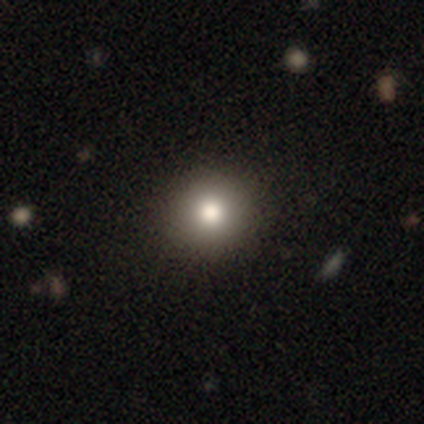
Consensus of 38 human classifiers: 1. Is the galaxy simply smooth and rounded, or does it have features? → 84% smooth, 11% featured or disk, 5% star or artifact.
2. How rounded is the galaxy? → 94% round, 6% in between, 0% cigar-shaped.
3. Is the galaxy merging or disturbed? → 75% none, 3% minor disturbance, 0% major disturbance, 0% merger.